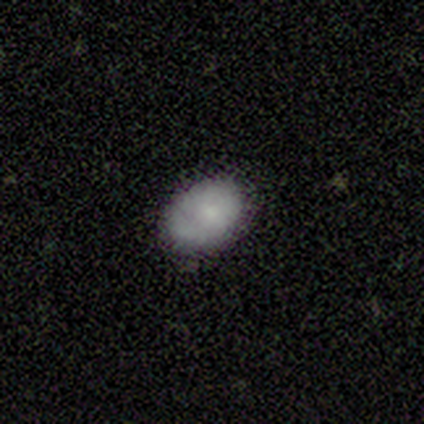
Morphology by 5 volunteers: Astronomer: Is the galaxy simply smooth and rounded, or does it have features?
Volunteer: smooth — 60%.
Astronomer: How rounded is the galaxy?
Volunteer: in between — 100%.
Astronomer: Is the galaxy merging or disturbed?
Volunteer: none — 75%.